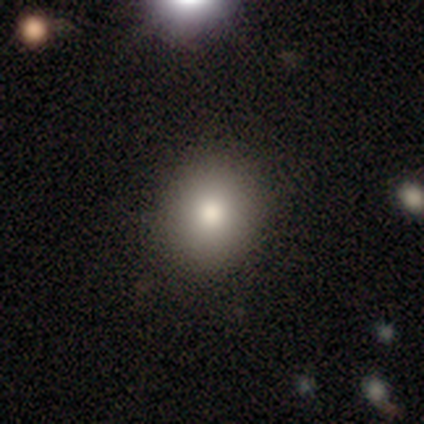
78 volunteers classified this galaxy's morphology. smooth 87%, star or artifact 8%, featured or disk 5%. Down the decision tree: how rounded — round (75%); merging — none (93%).